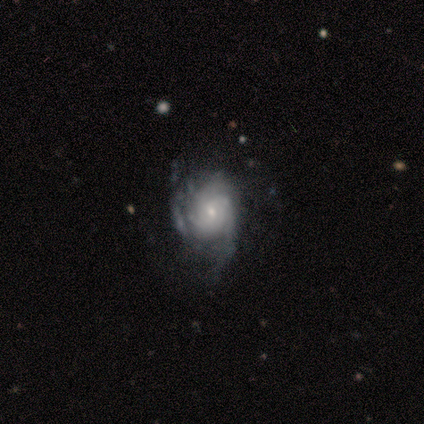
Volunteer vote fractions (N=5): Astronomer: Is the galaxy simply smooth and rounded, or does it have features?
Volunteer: featured or disk — 100%.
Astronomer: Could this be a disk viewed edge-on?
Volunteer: no — 100%.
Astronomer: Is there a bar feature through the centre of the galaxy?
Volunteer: no — 100%.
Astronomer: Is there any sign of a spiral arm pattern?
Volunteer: yes — 100%.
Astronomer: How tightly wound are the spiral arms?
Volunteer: tight — 80%.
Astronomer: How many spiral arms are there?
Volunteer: can't tell — 60%.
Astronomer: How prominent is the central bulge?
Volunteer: small — 80%.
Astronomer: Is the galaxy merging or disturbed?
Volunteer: minor disturbance — 80%.